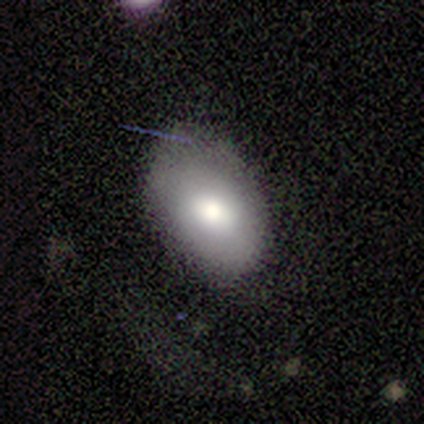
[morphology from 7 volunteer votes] type=smooth (71%); roundness=in between (80%); merging=minor disturbance (50%).